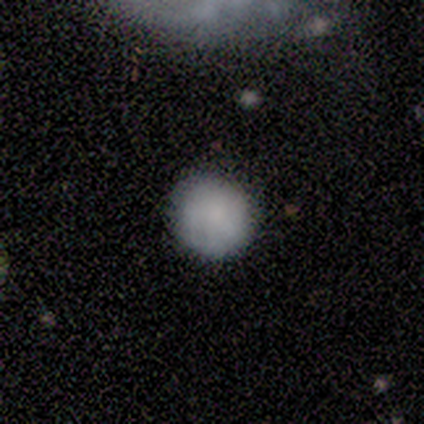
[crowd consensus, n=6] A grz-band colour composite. It shows a smooth galaxy with no disk features (100%) that is round (83%). Merging: none (83%).